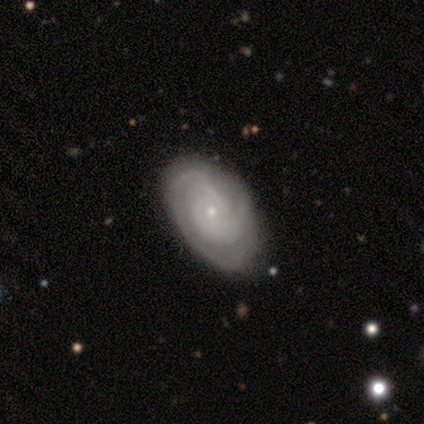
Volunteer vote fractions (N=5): Q: Smooth or featured?
A: featured or disk (80%); runner-up: smooth (20%)
Q: Edge-on disk?
A: no (100%)
Q: Bar?
A: no (50%); runner-up: strong (25%)
Q: Spiral arms?
A: yes (100%)
Q: Spiral winding?
A: tight (100%)
Q: Spiral arm count?
A: 2 (50%); runner-up: 4 (25%)
Q: Bulge size?
A: moderate (50%); tied with: small (50%)
Q: Merging?
A: none (80%); runner-up: minor disturbance (20%)